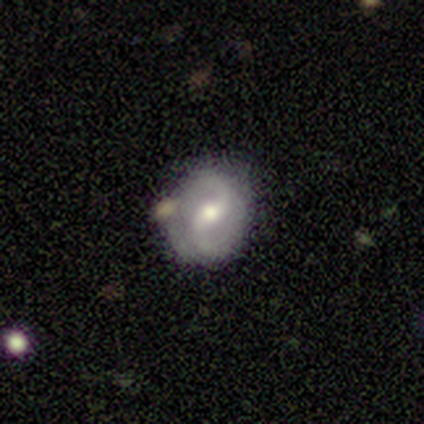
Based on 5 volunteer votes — Smooth or featured? 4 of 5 (80%) said featured or disk. Edge-on disk? 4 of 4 (100%) said no. Bar? 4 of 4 (100%) said weak. Spiral arms? 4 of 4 (100%) said yes. Spiral winding? 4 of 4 (100%) said medium. Spiral arm count? 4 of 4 (100%) said 2. Bulge size? 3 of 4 (75%) said moderate. Merging? 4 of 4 (100%) said none.